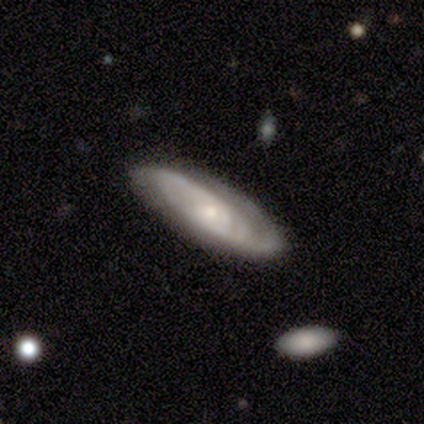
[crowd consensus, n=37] Smooth or featured? featured or disk (78%)
Edge-on disk? no (83%)
Bar? no (62%)
Spiral arms? yes (83%)
Spiral winding? medium (55%)
Spiral arm count? 2 (50%)
Bulge size? small (75%)
Merging? none (74%)